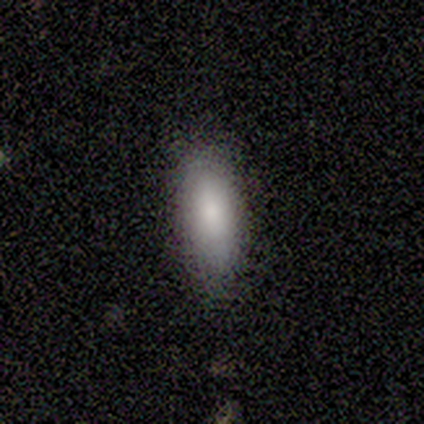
Volunteers were most divided on "how rounded": in between: 82%, cigar-shaped: 18%, round: 0%. More confident: smooth or featured — smooth (94%); merging — none (94%).